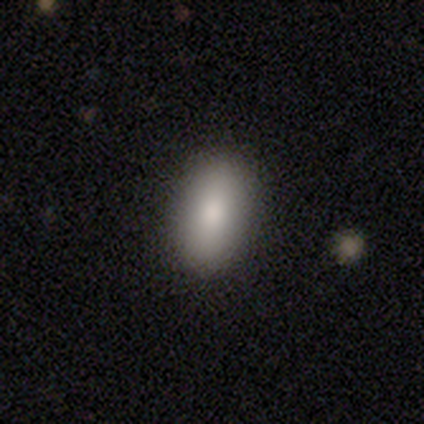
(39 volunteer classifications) This appears to be a smooth galaxy with no disk features (82%) that is in between round and cigar-shaped (97%). Merging: none (89%).